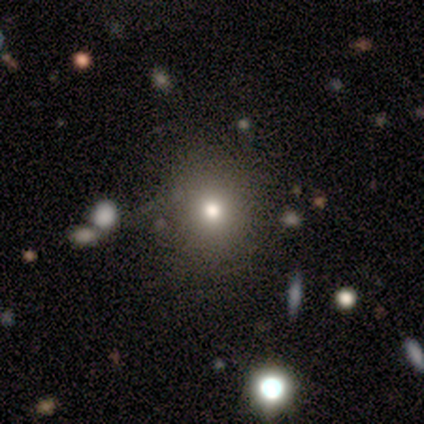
Smooth or featured?
  - smooth: 70% *
  - featured or disk: 15%
  - star or artifact: 15%
How rounded?
  - round: 75% *
  - in between: 21%
  - cigar-shaped: 4%
Merging?
  - none: 71% *
  - minor disturbance: 15%
  - major disturbance: 12%
  - merger: 3%